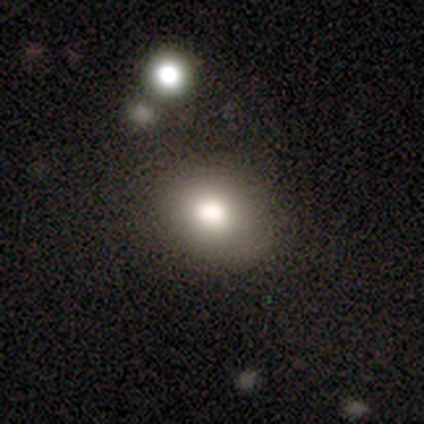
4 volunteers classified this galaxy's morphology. Smooth or featured: smooth — 100%
How rounded: round — 50% (tied with in between — 50%)
Merging: none — 100%